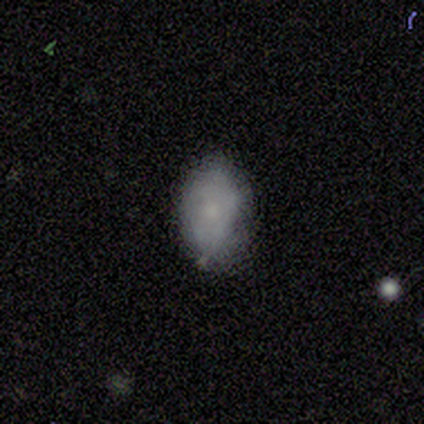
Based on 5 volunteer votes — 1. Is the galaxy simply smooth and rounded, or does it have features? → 80% smooth, 20% star or artifact, 0% featured or disk.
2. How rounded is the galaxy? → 100% in between, 0% round, 0% cigar-shaped.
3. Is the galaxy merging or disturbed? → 75% none, 25% minor disturbance, 0% major disturbance, 0% merger.